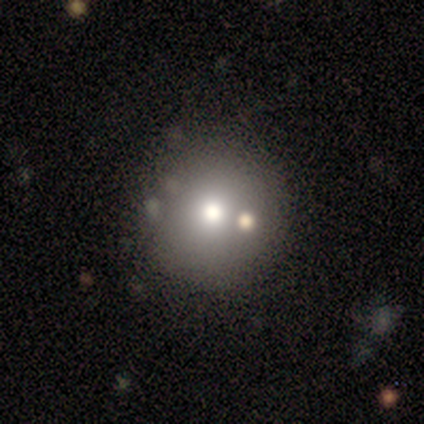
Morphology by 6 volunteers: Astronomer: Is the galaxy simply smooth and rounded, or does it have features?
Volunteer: smooth — 100%.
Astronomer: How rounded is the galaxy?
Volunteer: round — 100%.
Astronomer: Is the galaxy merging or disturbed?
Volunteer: none — 50%.